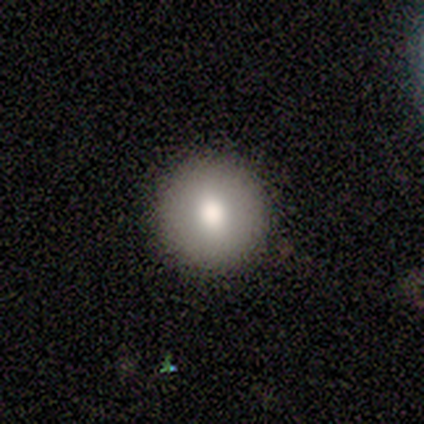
smooth-or-featured: smooth: 83% | star or artifact: 17% | featured or disk: 0%
  how-rounded: round: 80% | in between: 20% | cigar-shaped: 0%
  merging: none: 100% | minor disturbance: 0% | major disturbance: 0% | merger: 0%